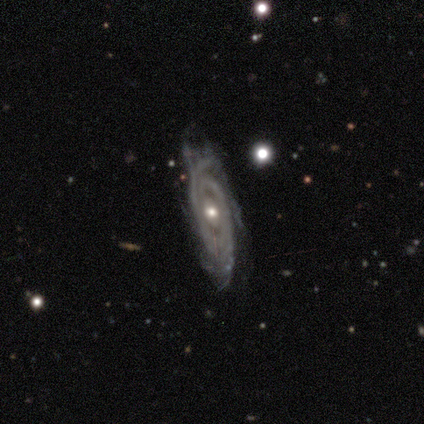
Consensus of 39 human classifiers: Smooth or featured?
  - featured or disk: 97% *
  - smooth: 3%
  - star or artifact: 0%
Edge-on disk?
  - no: 95% *
  - yes: 5%
Bar?
  - no: 64% *
  - weak: 19%
  - strong: 17%
Spiral arms?
  - yes: 100% *
  - no: 0%
Spiral winding?
  - tight: 83% *
  - medium: 17%
  - loose: 0%
Spiral arm count?
  - 2: 33% *
  - 3: 31%
  - can't tell: 22%
  - 4: 14%
  - 1: 0%
  - more than 4: 0%
Bulge size?
  - moderate: 69% *
  - small: 31%
  - dominant: 0%
  - large: 0%
  - none: 0%
Merging?
  - none: 67% *
  - minor disturbance: 18%
  - major disturbance: 13%
  - merger: 3%